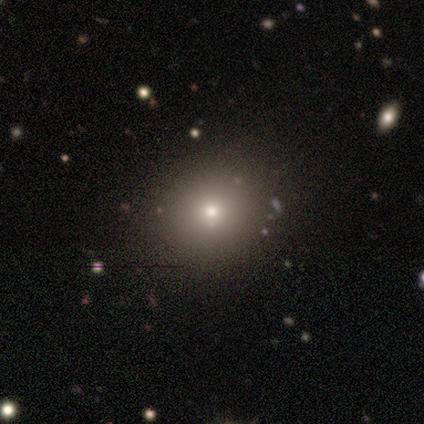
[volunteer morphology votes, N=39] Q: Smooth or featured?
A: smooth (72%); runner-up: star or artifact (18%)
Q: How rounded?
A: round (86%); runner-up: in between (14%)
Q: Merging?
A: none (78%); runner-up: minor disturbance (16%)